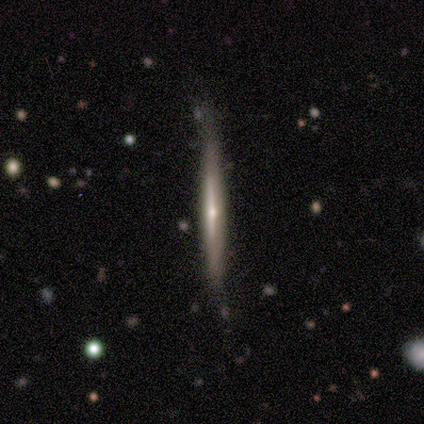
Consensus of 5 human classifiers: Smooth or featured? featured or disk (60%)
Edge-on disk? yes (100%)
Edge-on bulge? rounded (100%)
Merging? none (100%)